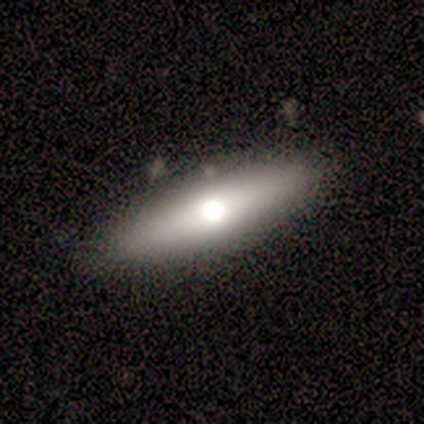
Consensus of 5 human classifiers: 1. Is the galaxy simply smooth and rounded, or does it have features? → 80% featured or disk, 20% smooth, 0% star or artifact.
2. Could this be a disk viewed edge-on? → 50% yes (tied), 50% no (tied).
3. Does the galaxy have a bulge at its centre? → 100% rounded, 0% boxy, 0% none.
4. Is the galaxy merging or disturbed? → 100% none, 0% minor disturbance, 0% major disturbance, 0% merger.